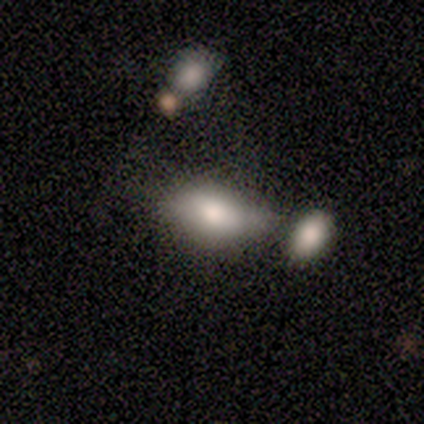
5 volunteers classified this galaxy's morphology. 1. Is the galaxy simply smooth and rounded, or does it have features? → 100% smooth, 0% featured or disk, 0% star or artifact.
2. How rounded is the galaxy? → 100% in between, 0% round, 0% cigar-shaped.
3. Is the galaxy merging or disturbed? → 40% major disturbance, 20% none, 20% minor disturbance, 20% merger.